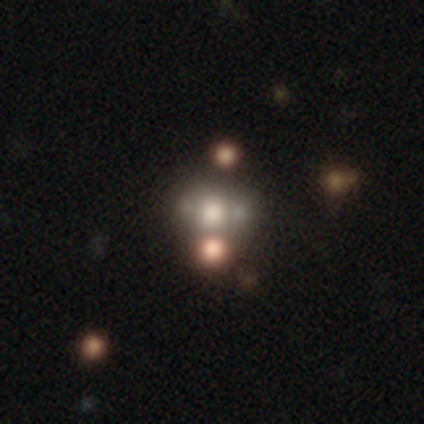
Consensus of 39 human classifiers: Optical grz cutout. It shows a smooth galaxy with no disk features (41%) that is in between round and cigar-shaped (56%). Merging: merger (44%).